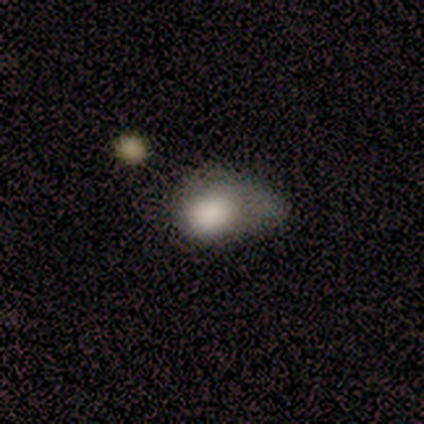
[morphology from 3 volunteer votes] smooth-or-featured: smooth: 100% | featured or disk: 0% | star or artifact: 0%
  how-rounded: in between: 100% | round: 0% | cigar-shaped: 0%
  merging: major disturbance: 67% | merger: 33% | none: 0% | minor disturbance: 0%